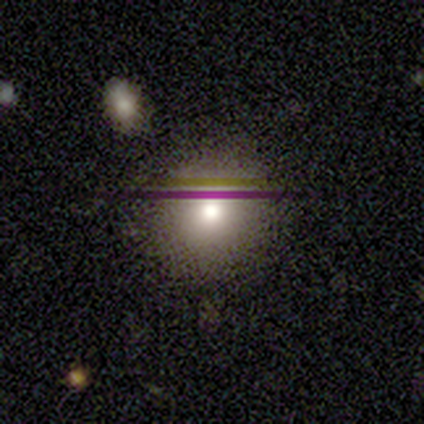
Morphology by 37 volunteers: A smooth galaxy with no disk features (59%) that is round (86%).

Vote fractions:
- Smooth or featured? smooth: 59% / star or artifact: 24% / featured or disk: 16%
- How rounded? round: 86% / in between: 14% / cigar-shaped: 0%
- Merging? none: 89% / major disturbance: 7% / minor disturbance: 4% / merger: 0%